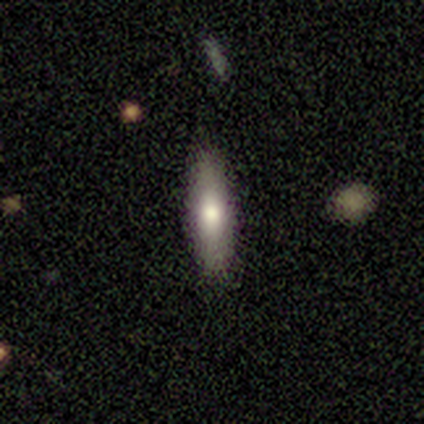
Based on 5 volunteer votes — Q: Smooth or featured?
A: smooth (60%); runner-up: featured or disk (40%)
Q: How rounded?
A: cigar-shaped (67%); runner-up: in between (33%)
Q: Merging?
A: none (80%); runner-up: minor disturbance (20%)